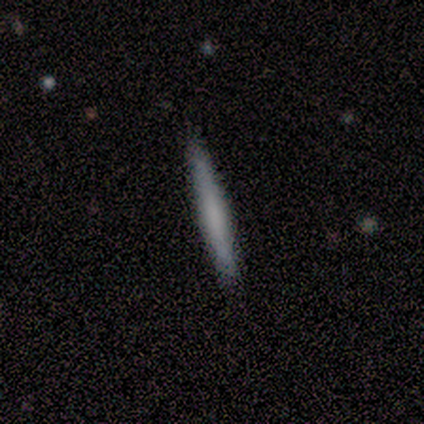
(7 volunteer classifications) smooth 57%, featured or disk 29%, star or artifact 14%. Down the decision tree: how rounded — cigar-shaped (100%); merging — none (83%).